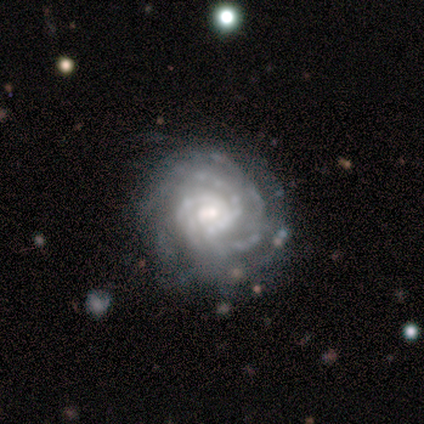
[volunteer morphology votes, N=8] A featured or disk galaxy (100%) with no bar (62%), 2 (38%) tight (88%) spiral arms (100%) and a small central bulge (62%). Merging: none (100%).